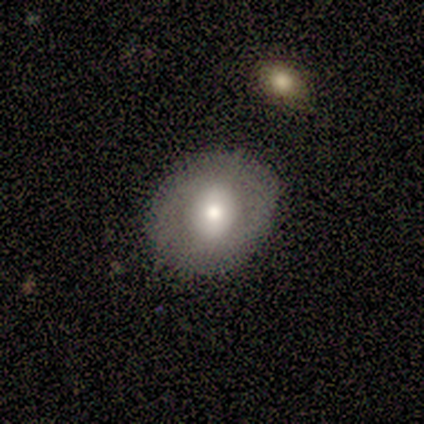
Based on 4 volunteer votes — This is possibly a smooth galaxy (50%, tied with featured or disk). How rounded: clearly round (100%). Merging: clearly none (100%).